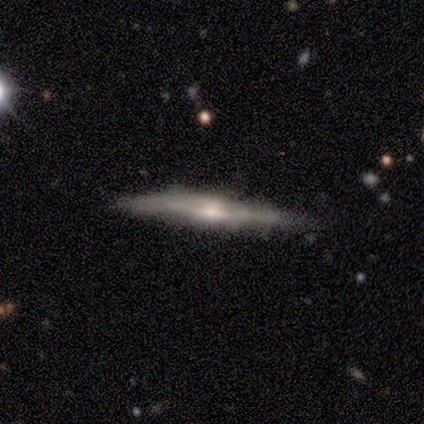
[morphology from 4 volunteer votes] smooth_or_featured: featured or disk (p=1.00)
disk_edge_on: yes (p=1.00)
edge_on_bulge: boxy (p=0.50) [tied with: rounded p=0.50]
merging: none (p=0.75) [alt: minor disturbance p=0.25]